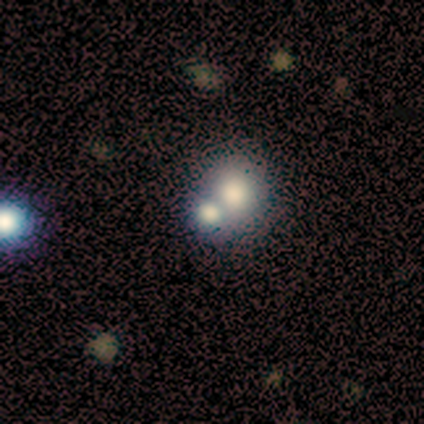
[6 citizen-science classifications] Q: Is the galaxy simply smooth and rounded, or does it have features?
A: featured or disk — 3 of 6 (50%).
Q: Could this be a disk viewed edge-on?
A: no — 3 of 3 (100%).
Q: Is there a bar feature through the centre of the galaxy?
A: no — 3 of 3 (100%).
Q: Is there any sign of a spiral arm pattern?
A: no — 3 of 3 (100%).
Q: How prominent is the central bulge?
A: dominant — 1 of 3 (33%, tied with moderate and none).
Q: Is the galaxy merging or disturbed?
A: none — 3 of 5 (60%).